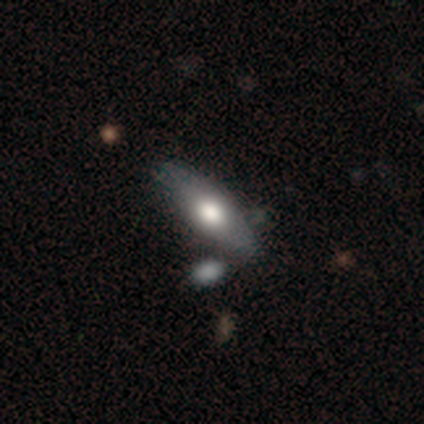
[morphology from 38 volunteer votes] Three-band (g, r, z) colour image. It shows a smooth galaxy with no disk features (53%) that is in between round and cigar-shaped (85%). Merging: none (43%).